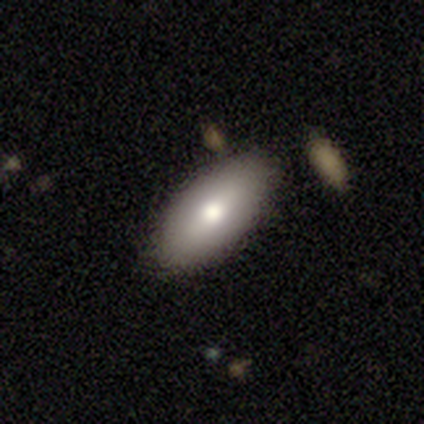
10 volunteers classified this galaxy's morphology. Smooth or featured? 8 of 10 (80%) said smooth. How rounded? 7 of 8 (88%) said in between. Merging? 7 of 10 (70%) said none.